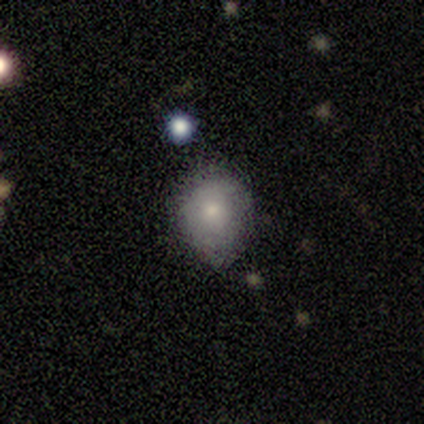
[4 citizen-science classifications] This is clearly a smooth galaxy (100%). How rounded: possibly round (50%, tied with in between). Merging: likely minor disturbance (75%).